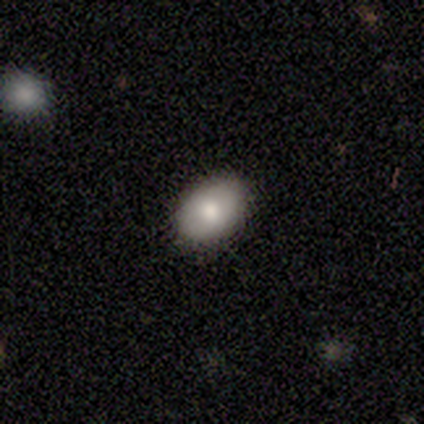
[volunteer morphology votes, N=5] smooth 80%, featured or disk 20%, star or artifact 0%. Down the decision tree: how rounded — in between (100%); merging — none (80%).